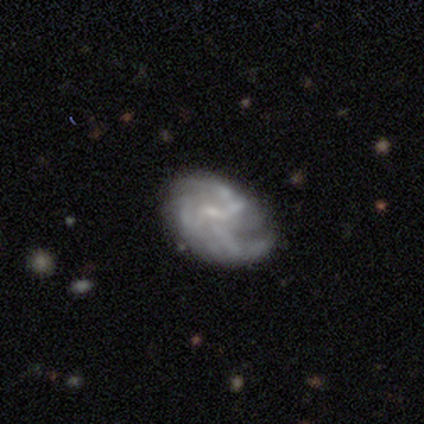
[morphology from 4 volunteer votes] Smooth or featured?
  - featured or disk: 75% *
  - smooth: 25%
  - star or artifact: 0%
Edge-on disk?
  - no: 100% *
  - yes: 0%
Bar?
  - weak: 100% *
  - strong: 0%
  - no: 0%
Spiral arms?
  - yes: 100% *
  - no: 0%
Spiral winding?
  - tight: 33% * (tied)
  - medium: 33% * (tied)
  - loose: 33% * (tied)
Spiral arm count?
  - 3: 100% *
  - 1: 0%
  - 2: 0%
  - 4: 0%
  - more than 4: 0%
  - can't tell: 0%
Bulge size?
  - moderate: 33% * (tied)
  - small: 33% * (tied)
  - none: 33% * (tied)
  - dominant: 0%
  - large: 0%
Merging?
  - none: 100% *
  - minor disturbance: 0%
  - major disturbance: 0%
  - merger: 0%